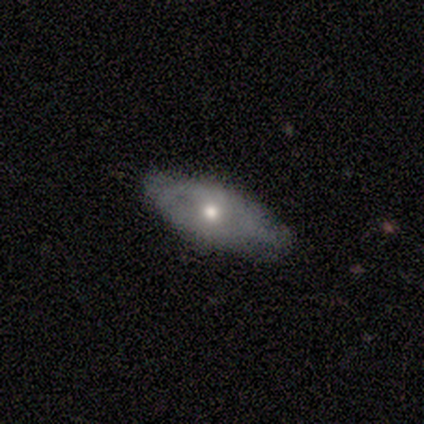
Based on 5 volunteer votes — Morphology: type=featured or disk (80%); edge-on=yes (50%, tied with no); edge-on bulge=rounded (100%); merging=none (60%).